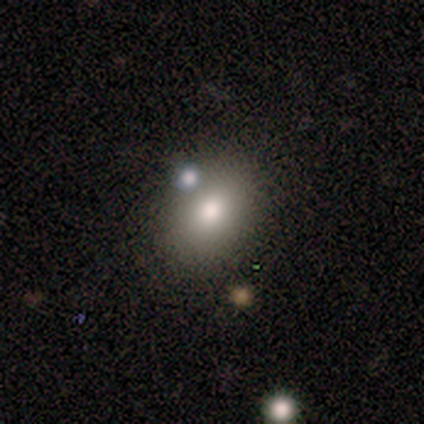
Overall: smooth (75%). How rounded: in between (100%). Merging: none (67%; merger 33%).